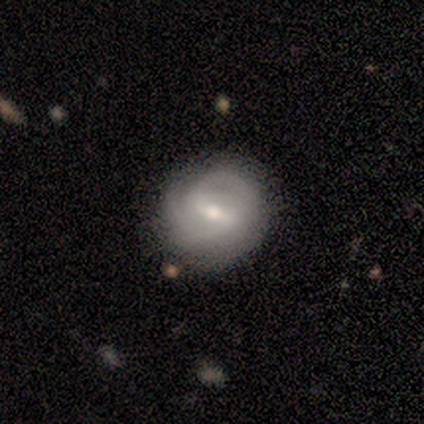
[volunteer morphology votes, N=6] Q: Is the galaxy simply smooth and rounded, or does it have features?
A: featured or disk — 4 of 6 (67%).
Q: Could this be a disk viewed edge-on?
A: no — 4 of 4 (100%).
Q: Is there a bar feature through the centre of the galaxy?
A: strong — 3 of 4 (75%).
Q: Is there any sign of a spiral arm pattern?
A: yes — 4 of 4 (100%).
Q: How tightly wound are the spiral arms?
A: tight — 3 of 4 (75%).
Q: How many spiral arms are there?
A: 2 — 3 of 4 (75%).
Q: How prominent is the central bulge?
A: moderate — 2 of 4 (50%).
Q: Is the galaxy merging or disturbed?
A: none — 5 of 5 (100%).